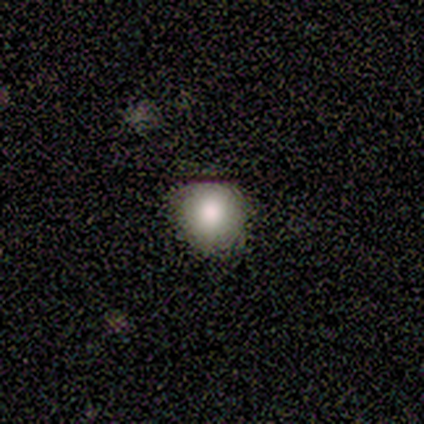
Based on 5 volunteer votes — Smooth or featured?
  - smooth: 80% *
  - star or artifact: 20%
  - featured or disk: 0%
How rounded?
  - round: 100% *
  - in between: 0%
  - cigar-shaped: 0%
Merging?
  - none: 100% *
  - minor disturbance: 0%
  - major disturbance: 0%
  - merger: 0%